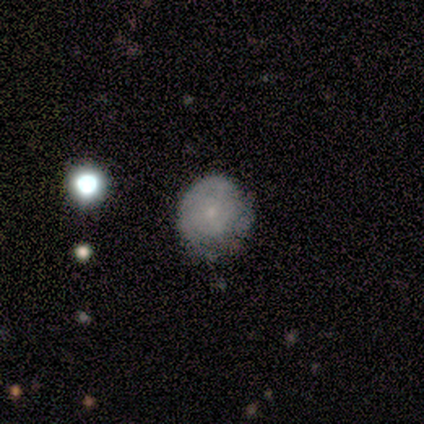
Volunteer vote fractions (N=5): Q: Smooth or featured?
A: featured or disk (60%); runner-up: smooth (20%)
Q: Edge-on disk?
A: no (100%)
Q: Bar?
A: no (100%)
Q: Spiral arms?
A: yes (67%); runner-up: no (33%)
Q: Spiral winding?
A: tight (50%); tied with: loose (50%)
Q: Spiral arm count?
A: 2 (50%); tied with: can't tell (50%)
Q: Bulge size?
A: small (67%); runner-up: none (33%)
Q: Merging?
A: none (75%); runner-up: minor disturbance (25%)